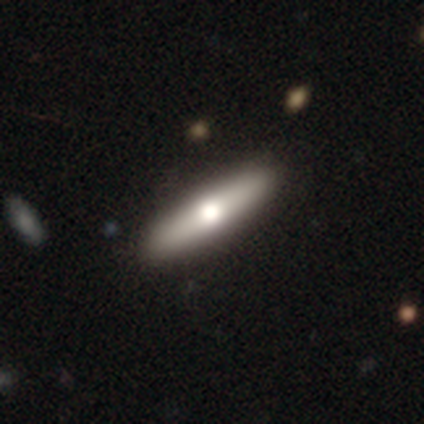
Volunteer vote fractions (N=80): Overall: smooth (68%; featured or disk 29%). How rounded: cigar-shaped (81%). Merging: none (49%).